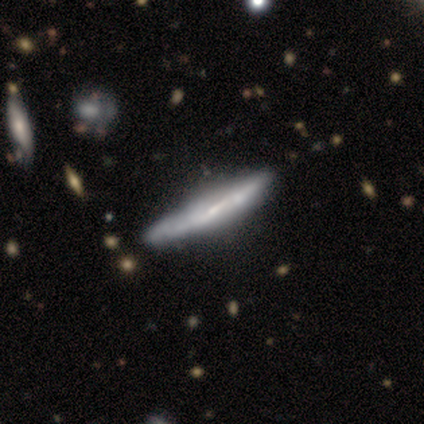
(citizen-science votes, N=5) This is clearly a featured or disk galaxy (80%). It is likely viewed edge-on (75%). Edge-on bulge: likely boxy (67%). Merging: marginally none (40%, tied with minor disturbance).